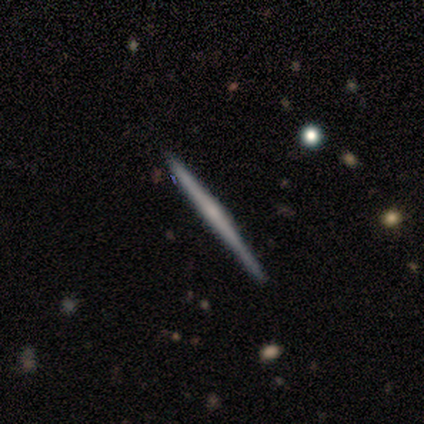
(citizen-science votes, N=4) Morphology: type=smooth (50%, tied with featured or disk); roundness=cigar-shaped (100%); merging=none (100%).